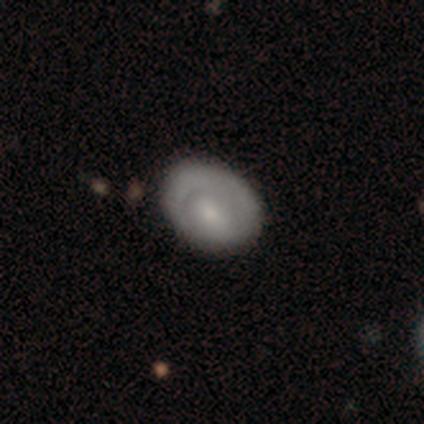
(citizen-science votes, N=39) featured or disk 54%, smooth 44%, star or artifact 3%. Down the decision tree: edge-on disk — no (95%); bar — no (70%); spiral arms — no (65%); bulge size — small (50%); merging — none (47%).